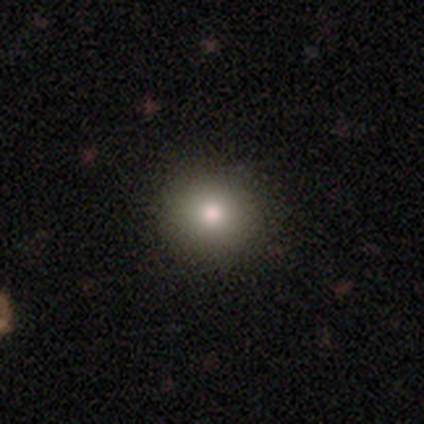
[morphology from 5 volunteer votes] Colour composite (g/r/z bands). It shows a smooth galaxy with no disk features (60%) that is round (100%). Merging: none (100%).